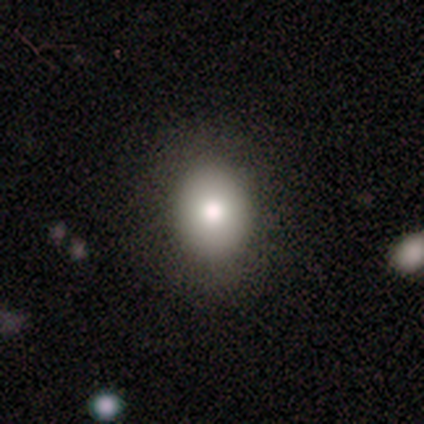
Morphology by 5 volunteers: This appears to be a smooth galaxy with no disk features (60%) that is round (67%). Merging: none (75%).